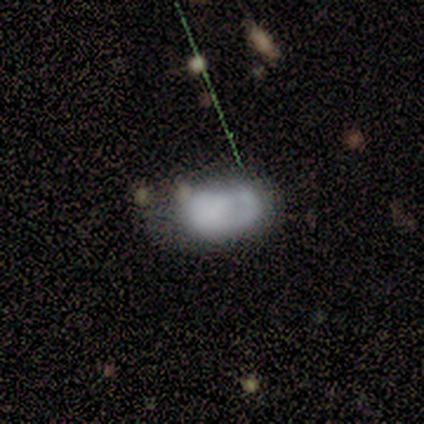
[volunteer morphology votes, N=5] Smooth or featured? 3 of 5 (60%) said smooth. How rounded? 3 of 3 (100%) said in between. Merging? 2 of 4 (50%) said merger.